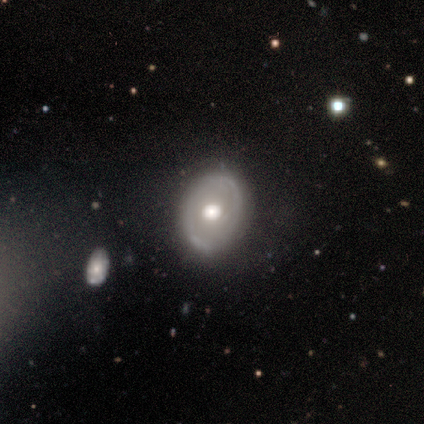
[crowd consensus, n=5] Smooth or featured? 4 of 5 (80%) said featured or disk. Edge-on disk? 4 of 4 (100%) said no. Bar? 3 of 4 (75%) said no. Spiral arms? 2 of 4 (50%, tied with no) said yes. Spiral winding? 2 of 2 (100%) said loose. Spiral arm count? 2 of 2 (100%) said 2. Bulge size? 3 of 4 (75%) said moderate. Merging? 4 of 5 (80%) said none.